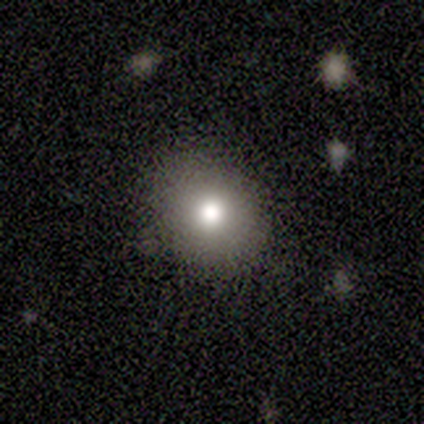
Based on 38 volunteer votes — Q: Smooth or featured?
A: smooth (61%); runner-up: featured or disk (32%)
Q: How rounded?
A: round (70%); runner-up: in between (26%)
Q: Merging?
A: none (86%); runner-up: minor disturbance (9%)